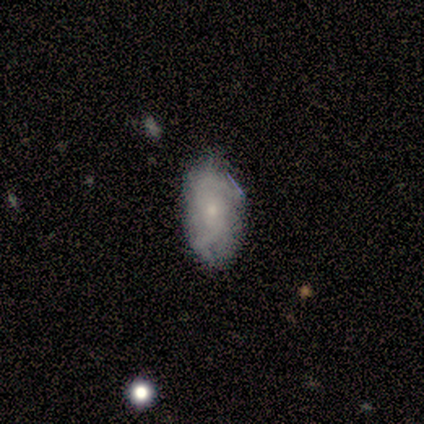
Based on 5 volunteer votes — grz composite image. It shows a featured or disk galaxy (60%) with no bar (67%), tight (33%, tied with medium and loose) spiral arms (100%) and a small central bulge (100%). Merging: none (80%).